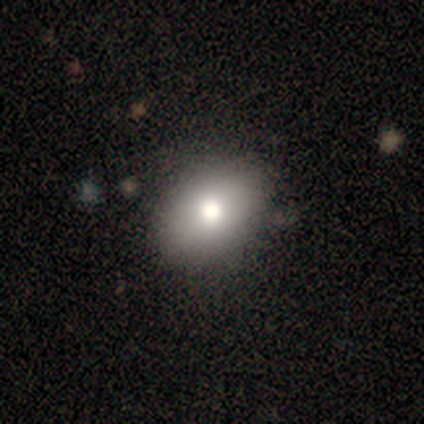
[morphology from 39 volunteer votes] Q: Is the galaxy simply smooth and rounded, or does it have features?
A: smooth — 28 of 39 (72%).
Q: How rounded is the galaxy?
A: in between — 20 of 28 (71%).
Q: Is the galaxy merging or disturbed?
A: none — 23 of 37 (62%).